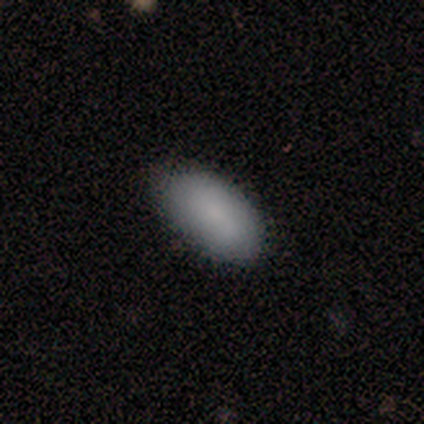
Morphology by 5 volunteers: Q: Smooth or featured?
A: smooth (80%); runner-up: featured or disk (20%)
Q: How rounded?
A: in between (100%)
Q: Merging?
A: none (60%); runner-up: minor disturbance (40%)